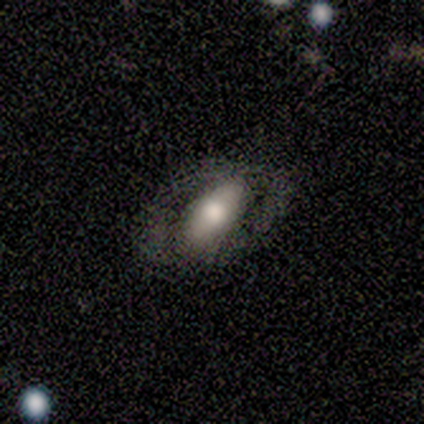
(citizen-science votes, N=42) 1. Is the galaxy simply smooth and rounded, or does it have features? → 60% featured or disk, 36% smooth, 5% star or artifact.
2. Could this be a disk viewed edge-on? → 92% no, 8% yes.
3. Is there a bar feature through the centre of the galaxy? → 57% no, 30% strong, 13% weak.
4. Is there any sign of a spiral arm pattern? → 57% no, 43% yes.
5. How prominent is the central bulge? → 52% large, 30% moderate, 9% dominant, 9% small, 0% none.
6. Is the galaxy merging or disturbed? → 55% none, 22% minor disturbance, 20% major disturbance, 2% merger.